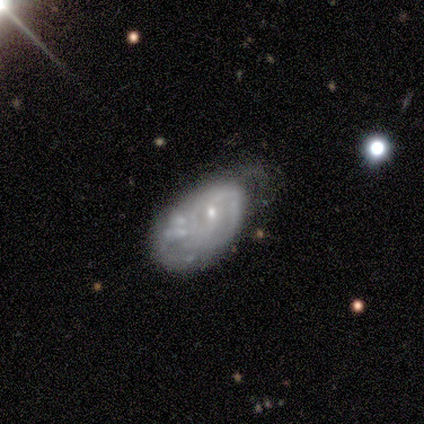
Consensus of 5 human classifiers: Smooth or featured? featured or disk (100%)
Edge-on disk? no (100%)
Bar? weak (60%)
Spiral arms? yes (80%)
Spiral winding? tight (50%, tied with medium)
Spiral arm count? can't tell (75%)
Bulge size? small (100%)
Merging? none (40%, tied with merger)